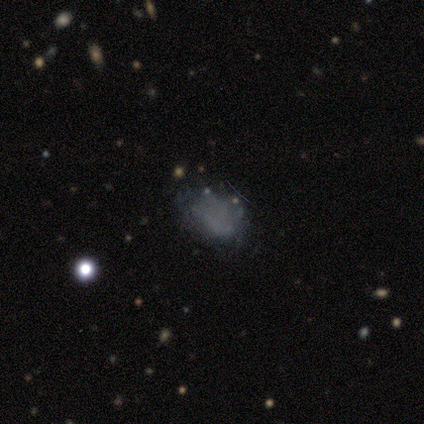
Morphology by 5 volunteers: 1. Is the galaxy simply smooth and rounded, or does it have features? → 100% smooth, 0% featured or disk, 0% star or artifact.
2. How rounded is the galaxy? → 60% in between, 20% round, 20% cigar-shaped.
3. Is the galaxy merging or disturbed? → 40% none (tied), 40% minor disturbance (tied), 20% major disturbance, 0% merger.